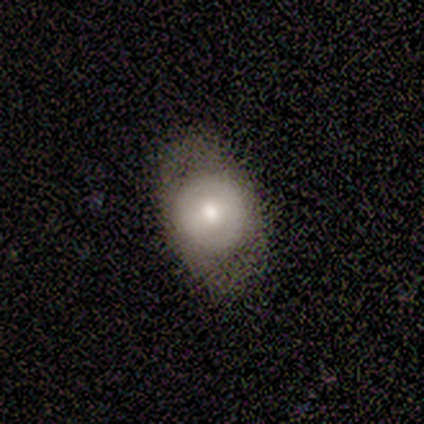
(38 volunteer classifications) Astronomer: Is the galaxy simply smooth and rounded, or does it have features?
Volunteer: smooth — 71%.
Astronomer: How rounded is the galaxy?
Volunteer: in between — 67%.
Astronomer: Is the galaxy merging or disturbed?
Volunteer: none — 59%.